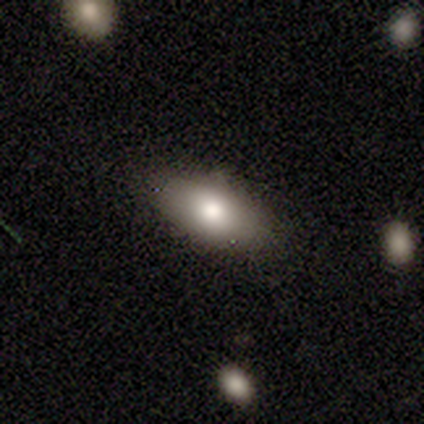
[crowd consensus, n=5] Smooth or featured?
  - smooth: 100% *
  - featured or disk: 0%
  - star or artifact: 0%
How rounded?
  - in between: 100% *
  - round: 0%
  - cigar-shaped: 0%
Merging?
  - none: 80% *
  - minor disturbance: 20%
  - major disturbance: 0%
  - merger: 0%